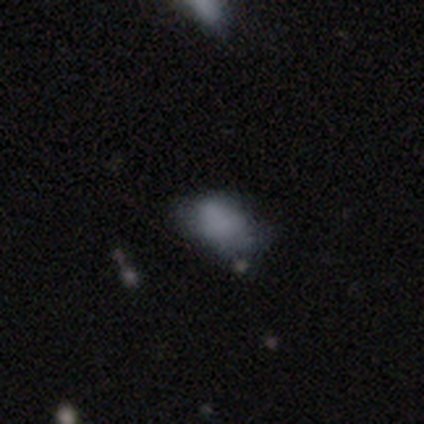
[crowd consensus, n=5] smooth_or_featured: smooth (p=0.80) [alt: star or artifact p=0.20]
how_rounded: in between (p=1.00)
merging: none (p=0.50) [tied with: minor disturbance p=0.50]